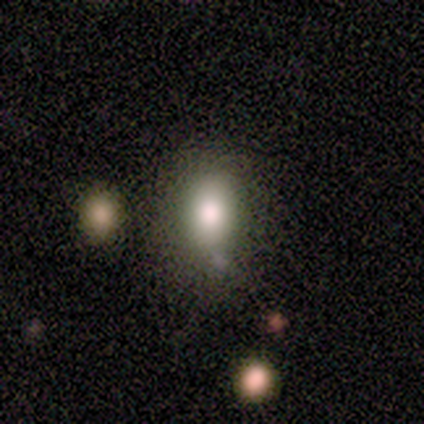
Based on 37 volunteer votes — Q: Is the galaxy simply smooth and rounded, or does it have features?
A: smooth — 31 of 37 (84%).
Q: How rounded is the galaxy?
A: in between — 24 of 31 (77%).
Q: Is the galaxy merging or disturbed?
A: none — 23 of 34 (68%).